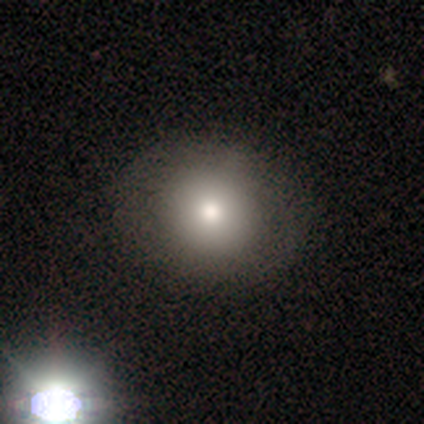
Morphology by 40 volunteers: A smooth galaxy with no disk features (80%) that is round (66%). Merging: none (87%).